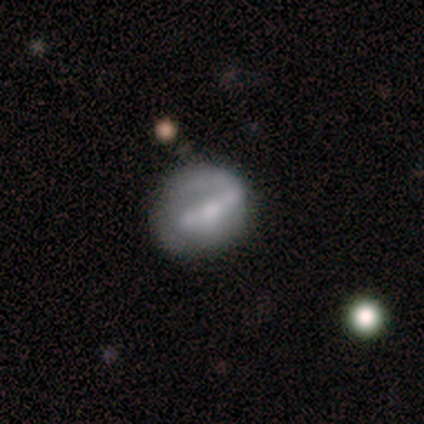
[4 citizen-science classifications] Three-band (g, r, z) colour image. It shows a smooth galaxy with no disk features (50%, tied with featured or disk) that is in between round and cigar-shaped (100%). Merging: none (50%, tied with minor disturbance).